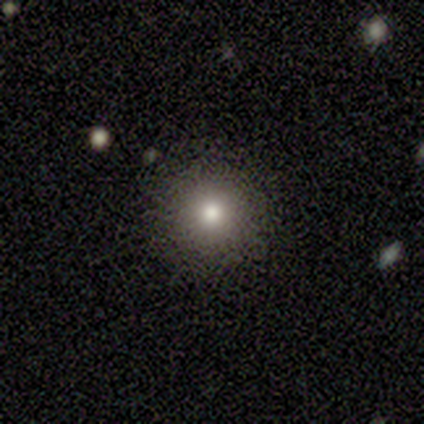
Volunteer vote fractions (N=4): Smooth or featured? 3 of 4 (75%) said smooth. How rounded? 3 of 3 (100%) said round. Merging? 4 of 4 (100%) said none.